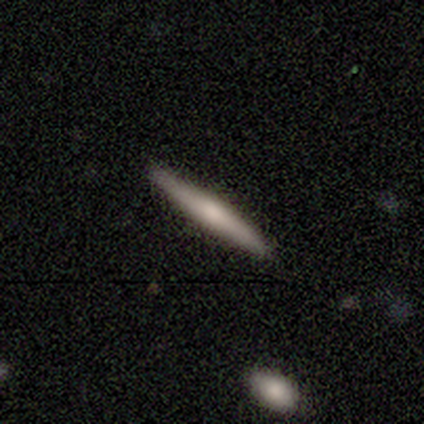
Overall: featured or disk (51%; smooth 41%). Edge-on disk: yes (100%). Edge-on bulge: rounded (60%; none 25%). Merging: none (97%).